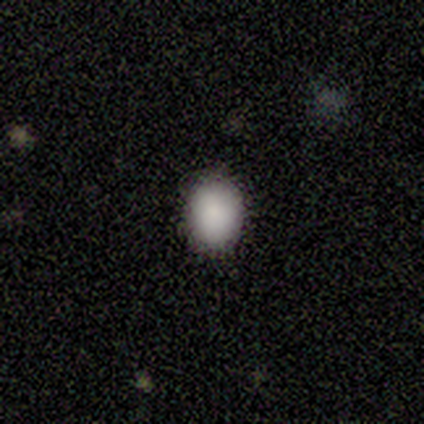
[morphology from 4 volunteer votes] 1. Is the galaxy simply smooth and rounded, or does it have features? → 100% smooth, 0% featured or disk, 0% star or artifact.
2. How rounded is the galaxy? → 75% round, 25% in between, 0% cigar-shaped.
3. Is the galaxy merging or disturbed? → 100% none, 0% minor disturbance, 0% major disturbance, 0% merger.